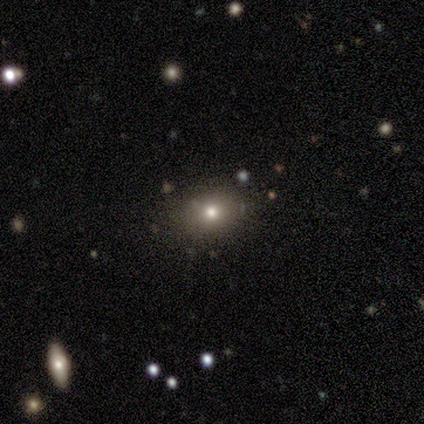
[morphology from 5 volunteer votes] smooth_or_featured: smooth (p=0.80) [alt: star or artifact p=0.20]
how_rounded: in between (p=0.75) [alt: round p=0.25]
merging: none (p=1.00)